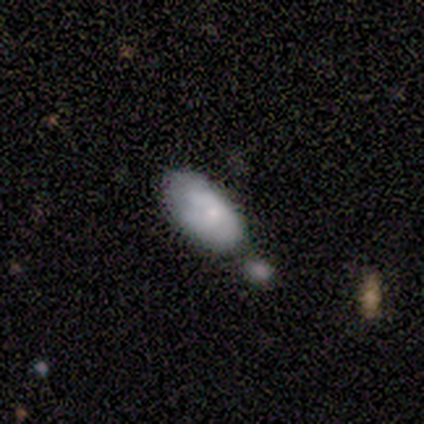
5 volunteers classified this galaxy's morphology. A smooth galaxy with no disk features (60%) that is in between round and cigar-shaped (100%). Merging: none (50%).